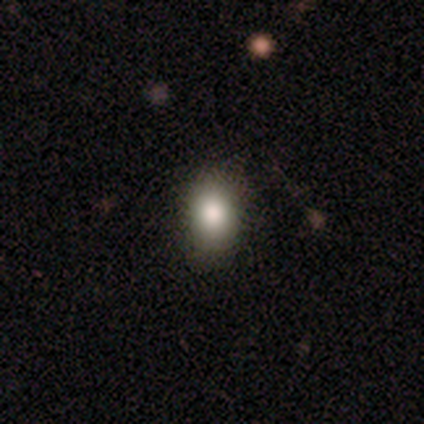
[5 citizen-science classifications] This appears to be a smooth galaxy with no disk features (100%) that is in between round and cigar-shaped (100%). Merging: none (100%).